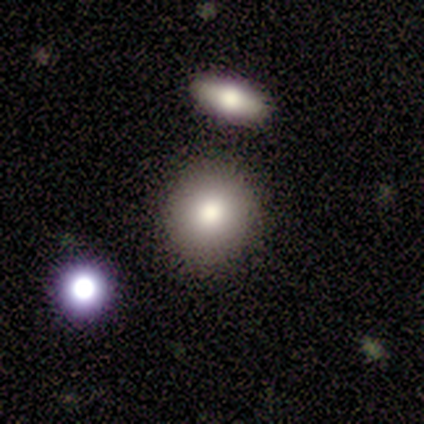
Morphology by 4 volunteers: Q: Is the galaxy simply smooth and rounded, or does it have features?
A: smooth — 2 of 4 (50%).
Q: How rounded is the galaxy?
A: round — 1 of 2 (50%, tied with in between).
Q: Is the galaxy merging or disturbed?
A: none — 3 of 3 (100%).